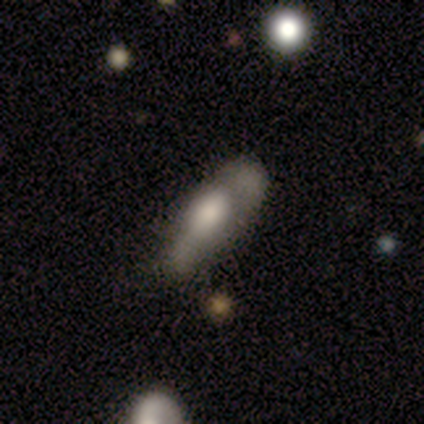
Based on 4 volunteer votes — smooth_or_featured: featured or disk (p=0.50) [alt: smooth p=0.25]
disk_edge_on: yes (p=1.00)
edge_on_bulge: rounded (p=1.00)
merging: minor disturbance (p=1.00)